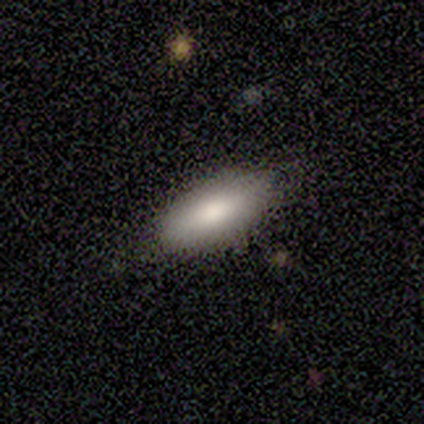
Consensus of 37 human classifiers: Morphology: type=smooth (89%); roundness=in between (88%); merging=none (83%).